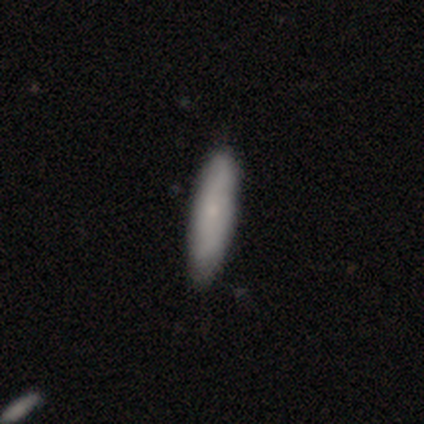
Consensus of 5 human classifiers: Smooth or featured? smooth (60%)
How rounded? cigar-shaped (67%)
Merging? none (80%)